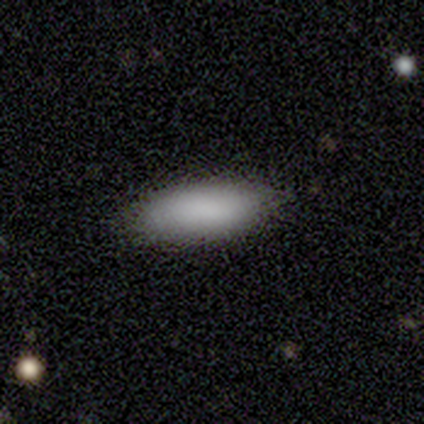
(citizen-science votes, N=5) Smooth or featured: smooth — 80% (featured or disk — 20%)
How rounded: in between — 75% (cigar-shaped — 25%)
Merging: none — 80% (minor disturbance — 20%)